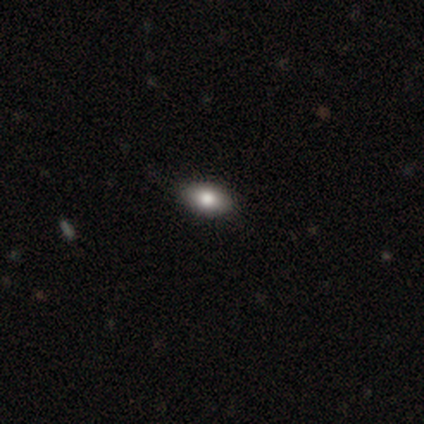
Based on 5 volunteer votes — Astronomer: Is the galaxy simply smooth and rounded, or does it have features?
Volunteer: smooth — 60%.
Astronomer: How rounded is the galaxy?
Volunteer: in between — 100%.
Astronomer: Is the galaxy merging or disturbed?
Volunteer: none — 75%.